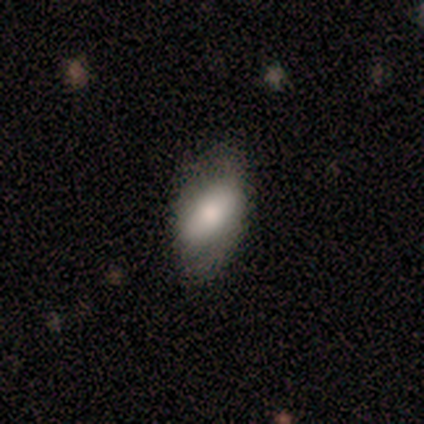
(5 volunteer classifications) A featured or disk galaxy (60%) with a weak bar (67%), 1 (50%, tied with 3) tight (50%, tied with loose) spiral arms (67%) and a large central bulge (67%).

Vote fractions:
- Smooth or featured? featured or disk: 60% / smooth: 40% / star or artifact: 0%
- Edge-on disk? no: 100% / yes: 0%
- Bar? weak: 67% / strong: 33% / no: 0%
- Spiral arms? yes: 67% / no: 33%
- Spiral winding? tight: 50% (tied) / loose: 50% (tied) / medium: 0%
- Spiral arm count? 1: 50% (tied) / 3: 50% (tied) / 2: 0% / 4: 0% / more than 4: 0% / can't tell: 0%
- Bulge size? large: 67% / dominant: 33% / moderate: 0% / small: 0% / none: 0%
- Merging? minor disturbance: 60% / none: 20% / major disturbance: 20% / merger: 0%